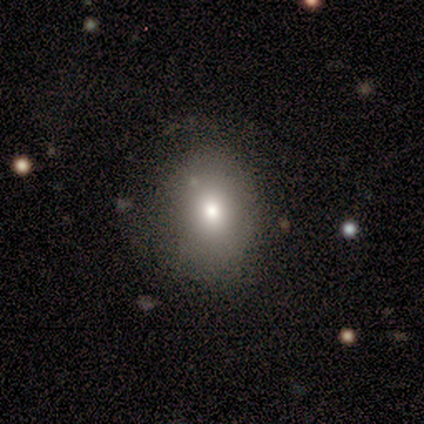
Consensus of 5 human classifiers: smooth_or_featured: smooth (p=0.60) [alt: featured or disk p=0.20]
how_rounded: round (p=0.67) [alt: in between p=0.33]
merging: none (p=0.75) [alt: major disturbance p=0.25]